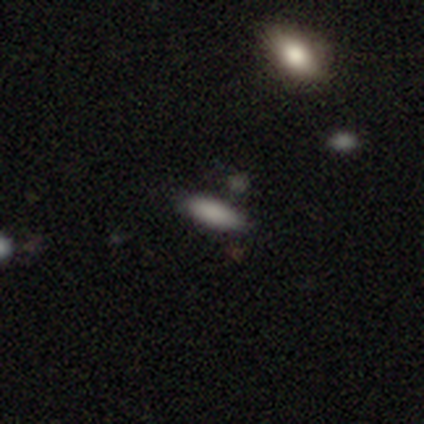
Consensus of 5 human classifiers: Smooth or featured? smooth (100%)
How rounded? in between (60%)
Merging? none (80%)